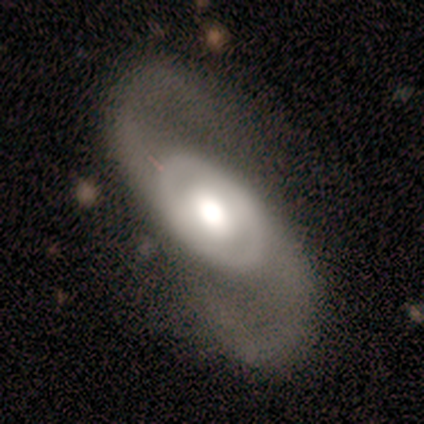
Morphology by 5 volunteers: Volunteers were most divided on "bulge size" (2-way tie): large: 50%, moderate: 50%, dominant: 0%, small: 0%, none: 0%. More confident: edge-on disk — no (100%); bar — no (100%); spiral arms — yes (100%); spiral winding — medium (100%); spiral arm count — 2 (100%); smooth or featured — featured or disk (80%); merging — none (60%).